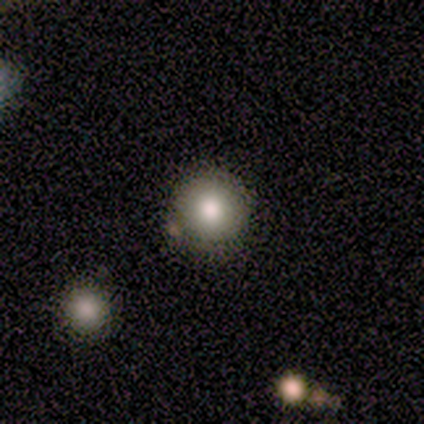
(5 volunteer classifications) A smooth galaxy with no disk features (80%) that is round (100%). Merging: none (60%).